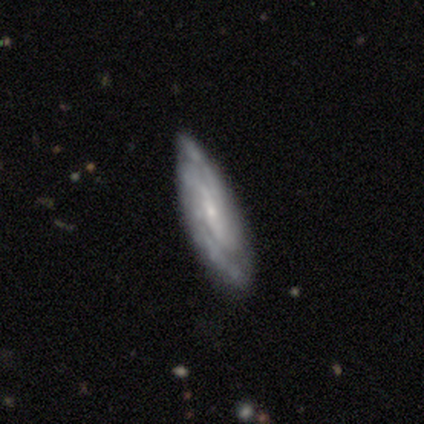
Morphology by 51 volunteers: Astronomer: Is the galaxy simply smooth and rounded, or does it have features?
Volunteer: featured or disk — 90%.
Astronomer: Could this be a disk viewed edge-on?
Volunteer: no — 85%.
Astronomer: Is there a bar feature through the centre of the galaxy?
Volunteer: no — 51%.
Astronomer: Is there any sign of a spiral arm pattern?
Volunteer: yes — 92%.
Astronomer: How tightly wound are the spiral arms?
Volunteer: tight — 58% (runner-up: medium, 39%).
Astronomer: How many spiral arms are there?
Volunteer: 2 — 50% (runner-up: can't tell, 33%).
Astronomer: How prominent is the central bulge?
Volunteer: small — 85%.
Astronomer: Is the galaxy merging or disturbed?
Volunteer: none — 78%.